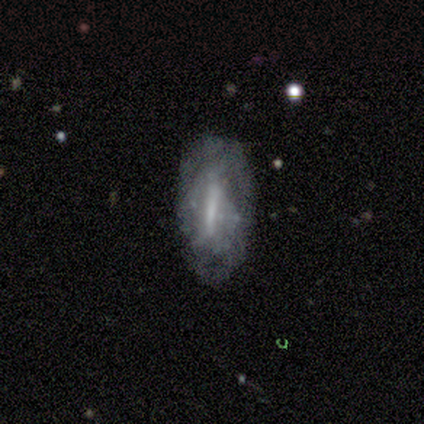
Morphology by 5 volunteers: Smooth or featured? featured or disk (60%)
Edge-on disk? no (100%)
Bar? strong (67%)
Spiral arms? no (67%)
Bulge size? small (67%)
Merging? none (50%, tied with minor disturbance)